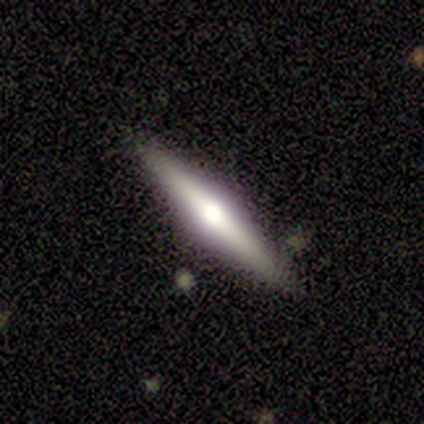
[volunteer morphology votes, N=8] smooth-or-featured: featured or disk: 88% | smooth: 12% | star or artifact: 0%
  disk-edge-on: yes: 100% | no: 0%
    edge-on-bulge: rounded: 100% | boxy: 0% | none: 0%
  merging: none: 88% | minor disturbance: 12% | major disturbance: 0% | merger: 0%